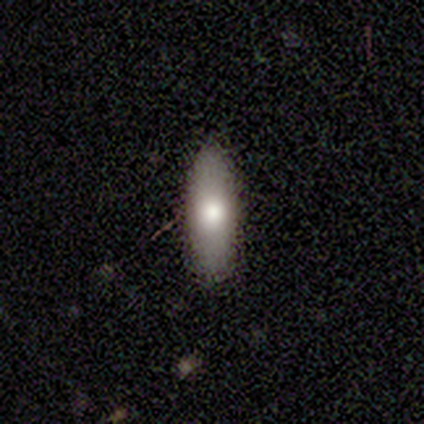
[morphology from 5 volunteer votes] smooth-or-featured: smooth: 60% | featured or disk: 20% | star or artifact: 20%
  how-rounded: in between: 67% | cigar-shaped: 33% | round: 0%
  merging: none: 100% | minor disturbance: 0% | major disturbance: 0% | merger: 0%